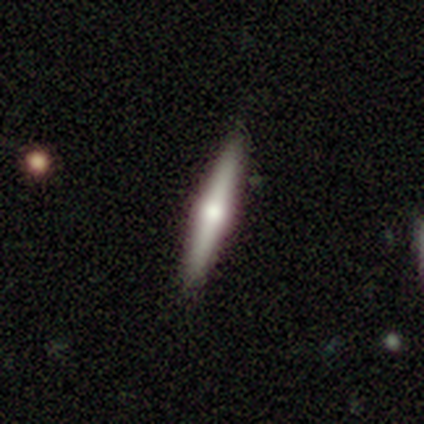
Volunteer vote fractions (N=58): This appears to be a featured or disk galaxy (57%) viewed edge-on (97%) with a rounded central bulge (94%). Merging: none (89%).